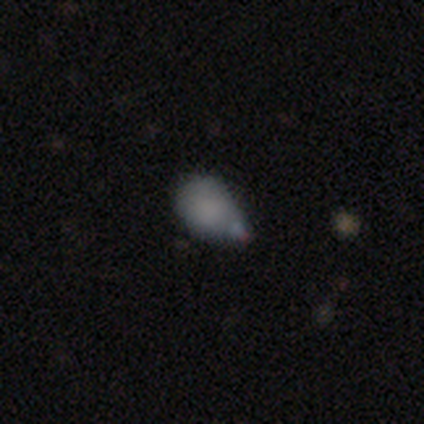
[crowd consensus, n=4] Overall: smooth (50%; featured or disk 25%). How rounded: round (100%). Merging: none (33%, tied with minor disturbance and major disturbance).